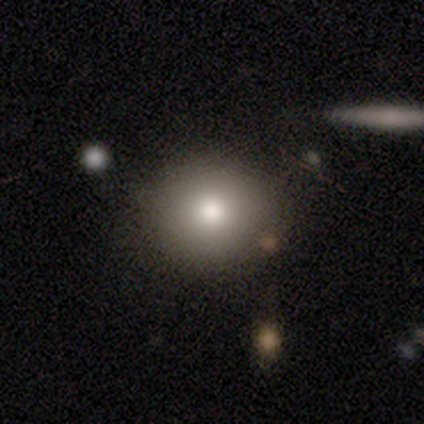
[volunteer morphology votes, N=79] type=smooth (77%); roundness=round (87%); merging=none (51%).